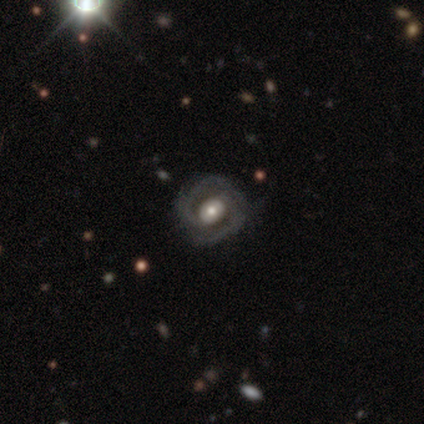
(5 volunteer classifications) Q: Smooth or featured?
A: featured or disk (80%); runner-up: star or artifact (20%)
Q: Edge-on disk?
A: yes (50%); tied with: no (50%)
Q: Edge-on bulge?
A: none (50%); tied with: rounded (50%)
Q: Merging?
A: none (100%)